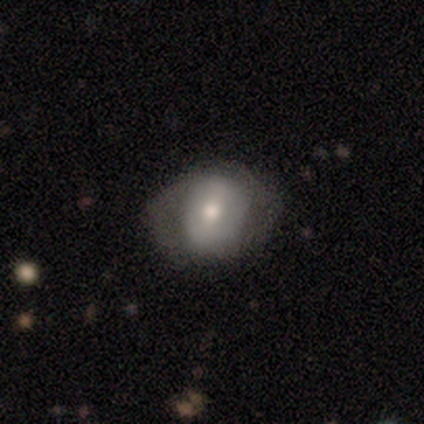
Volunteers were most divided on "spiral arms" (2-way tie): yes: 50%, no: 50%. Remaining: edge-on disk — no (100%); spiral arm count — 2 (80%); merging — none (68%); bulge size — moderate (60%); smooth or featured — featured or disk (57%); spiral winding — medium (47%); bar — strong (40%).